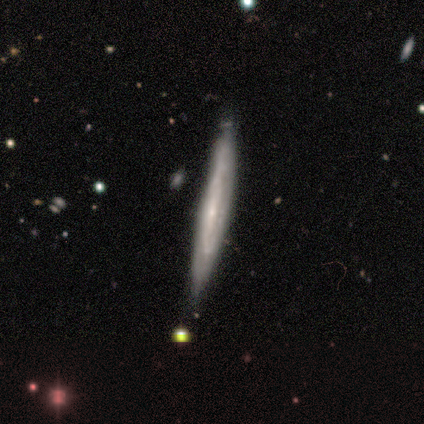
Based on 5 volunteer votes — Overall: featured or disk (60%; smooth 40%). Edge-on disk: yes (67%; no 33%). Edge-on bulge: rounded (100%). Merging: none (80%).